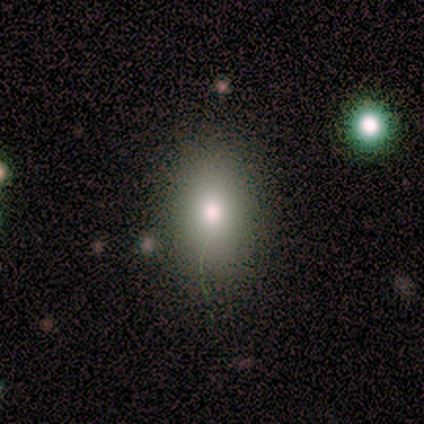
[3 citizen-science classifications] This appears to be a smooth galaxy with no disk features (67%) that is in between round and cigar-shaped (100%). Merging: none (100%).